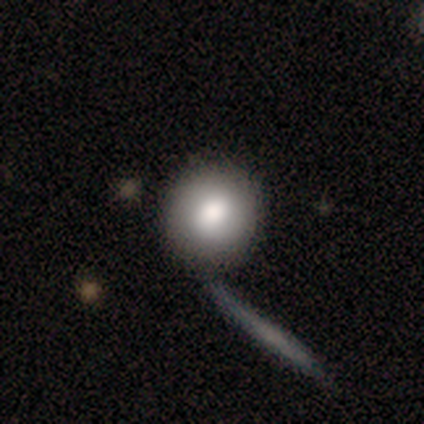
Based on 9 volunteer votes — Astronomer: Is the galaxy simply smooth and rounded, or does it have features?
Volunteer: smooth — 67%.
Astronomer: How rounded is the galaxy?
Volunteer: round — 100%.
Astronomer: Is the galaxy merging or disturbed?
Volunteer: none — 57%.